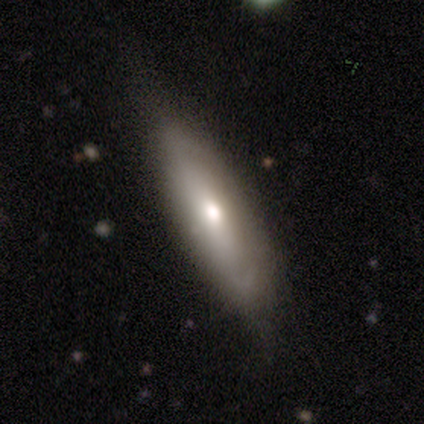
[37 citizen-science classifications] This appears to be a smooth galaxy with no disk features (54%) that is cigar-shaped (65%). Merging: none (71%).